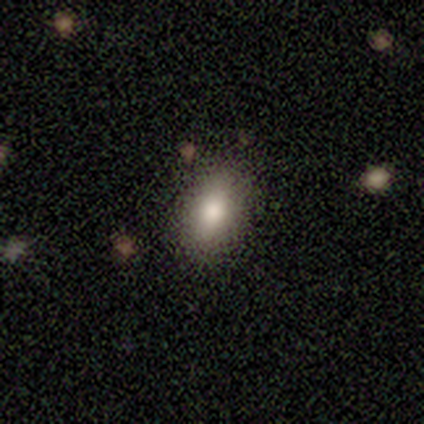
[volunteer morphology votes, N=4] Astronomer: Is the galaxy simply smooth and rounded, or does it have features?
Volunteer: smooth — 100%.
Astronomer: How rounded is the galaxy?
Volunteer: in between — 100%.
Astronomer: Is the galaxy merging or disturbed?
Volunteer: none — 100%.